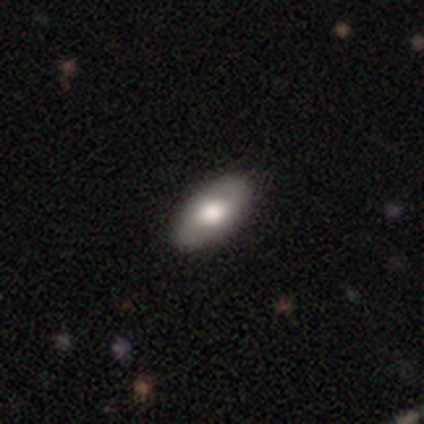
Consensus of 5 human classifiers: Smooth or featured? featured or disk (60%)
Edge-on disk? no (100%)
Bar? no (67%)
Spiral arms? yes (67%)
Spiral winding? tight (100%)
Spiral arm count? 2 (100%)
Bulge size? large (67%)
Merging? none (100%)